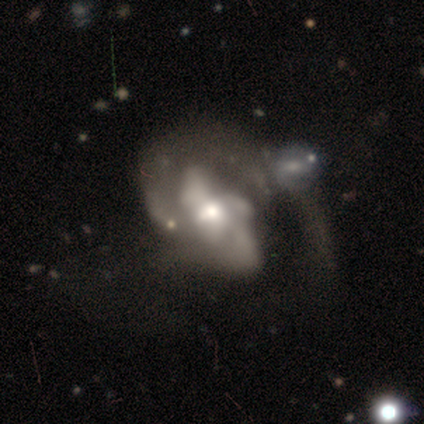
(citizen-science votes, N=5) Volunteers were most divided on "merging" (2-way tie): major disturbance: 50%, merger: 50%, none: 0%, minor disturbance: 0%. More confident: edge-on disk — no (100%); bar — no (100%); smooth or featured — featured or disk (80%); spiral arms — no (75%); bulge size — moderate (75%).